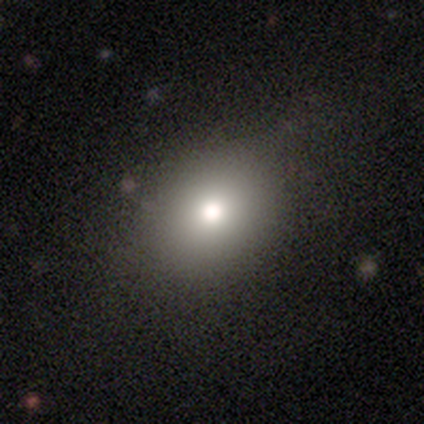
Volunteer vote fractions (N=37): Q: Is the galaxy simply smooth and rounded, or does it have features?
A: smooth — 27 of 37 (73%).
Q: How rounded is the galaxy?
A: round — 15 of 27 (56%).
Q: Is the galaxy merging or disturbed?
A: none — 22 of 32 (69%).